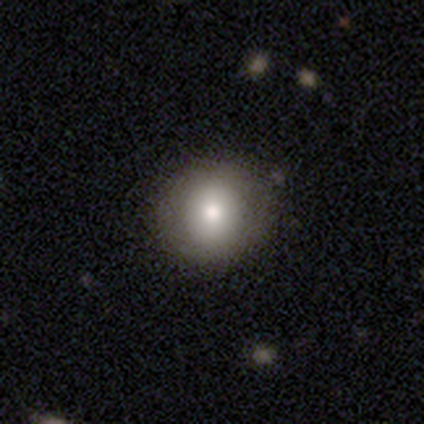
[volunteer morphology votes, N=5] This appears to be a smooth galaxy with no disk features (80%) that is round (75%). Merging: none (100%).